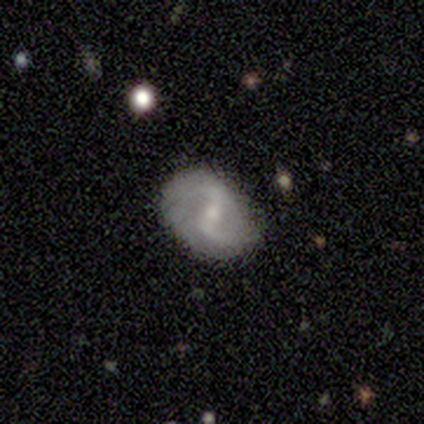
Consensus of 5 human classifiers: smooth_or_featured: featured or disk (p=0.60) [alt: smooth p=0.40]
disk_edge_on: no (p=0.67) [alt: yes p=0.33]
bar: strong (p=0.50) [tied with: no p=0.50]
has_spiral_arms: yes (p=0.50) [tied with: no p=0.50]
spiral_winding: medium (p=1.00)
spiral_arm_count: 2 (p=1.00)
bulge_size: moderate (p=0.50) [tied with: small p=0.50]
merging: none (p=0.60) [alt: minor disturbance p=0.40]